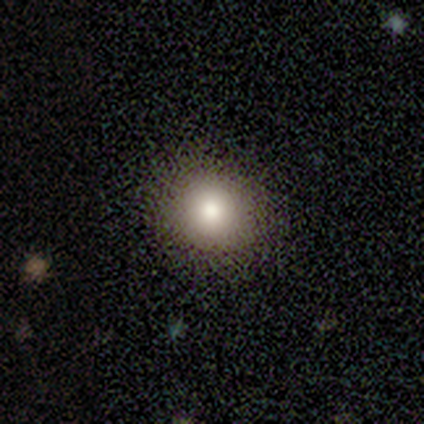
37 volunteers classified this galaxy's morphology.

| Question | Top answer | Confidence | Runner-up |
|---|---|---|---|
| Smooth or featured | smooth | 81% | star or artifact (11%) |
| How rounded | round | 93% | in between (7%) |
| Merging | none | 76% | minor disturbance (15%) |